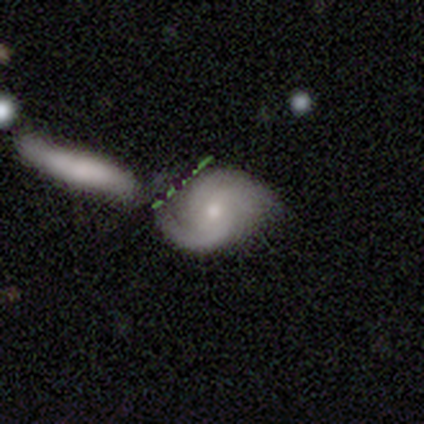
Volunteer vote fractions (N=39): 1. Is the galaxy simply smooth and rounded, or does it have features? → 72% featured or disk, 15% smooth, 13% star or artifact.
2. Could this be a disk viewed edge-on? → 96% no, 4% yes.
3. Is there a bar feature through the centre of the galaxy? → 59% weak, 30% no, 11% strong.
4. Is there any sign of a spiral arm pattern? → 96% yes, 4% no.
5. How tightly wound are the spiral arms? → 50% medium, 27% loose, 23% tight.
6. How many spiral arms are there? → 69% 2, 15% 3, 12% can't tell, 4% more than 4, 0% 1, 0% 4.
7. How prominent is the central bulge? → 59% small, 41% moderate, 0% dominant, 0% large, 0% none.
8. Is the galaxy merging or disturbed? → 50% none, 24% minor disturbance, 15% major disturbance, 12% merger.